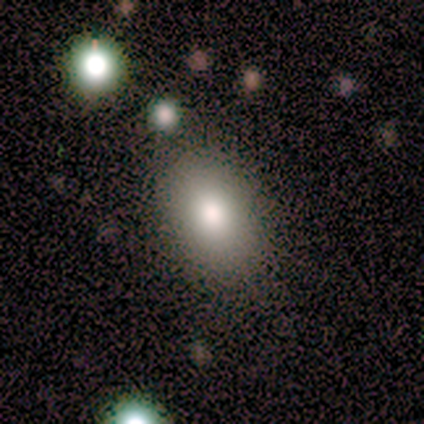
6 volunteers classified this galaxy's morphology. Smooth or featured?
  - smooth: 83% *
  - featured or disk: 17%
  - star or artifact: 0%
How rounded?
  - in between: 80% *
  - round: 20%
  - cigar-shaped: 0%
Merging?
  - none: 100% *
  - minor disturbance: 0%
  - major disturbance: 0%
  - merger: 0%